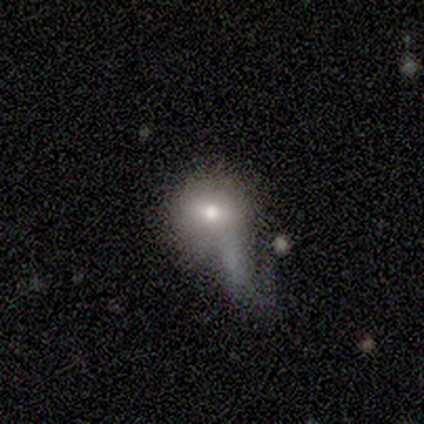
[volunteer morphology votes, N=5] A smooth galaxy with no disk features (80%) that is round (75%).

Vote fractions:
- Smooth or featured? smooth: 80% / featured or disk: 20% / star or artifact: 0%
- How rounded? round: 75% / in between: 25% / cigar-shaped: 0%
- Merging? minor disturbance: 60% / major disturbance: 40% / none: 0% / merger: 0%